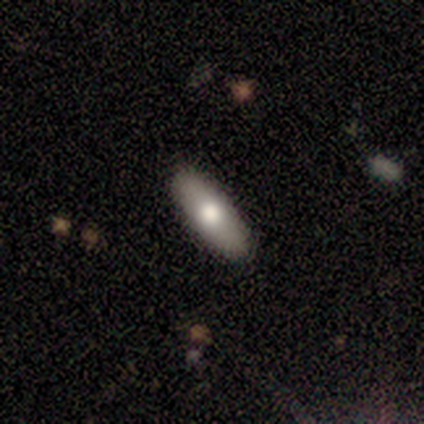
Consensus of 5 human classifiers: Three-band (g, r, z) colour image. It shows a smooth galaxy with no disk features (100%) that is in between round and cigar-shaped (60%). Merging: none (100%).